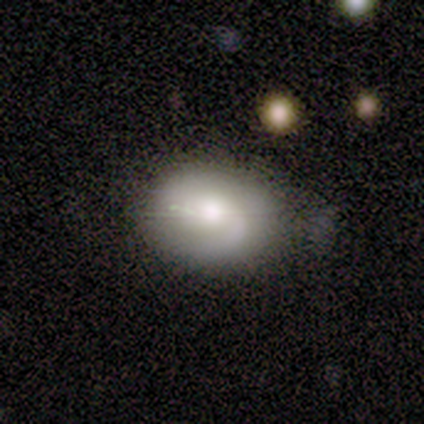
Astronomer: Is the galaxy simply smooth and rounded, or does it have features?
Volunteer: smooth — 50% (runner-up: featured or disk, 42%).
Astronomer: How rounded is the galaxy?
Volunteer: in between — 67%.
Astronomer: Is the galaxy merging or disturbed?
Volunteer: minor disturbance — 55%.